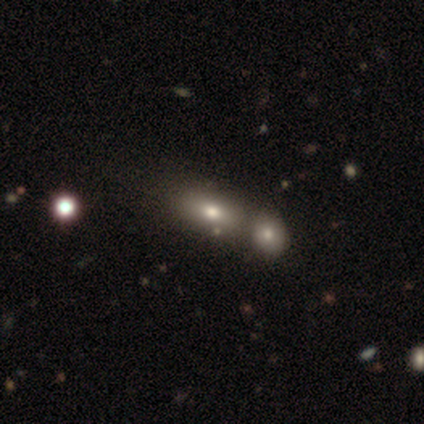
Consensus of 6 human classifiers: Smooth or featured?
  - smooth: 83% *
  - star or artifact: 17%
  - featured or disk: 0%
How rounded?
  - in between: 100% *
  - round: 0%
  - cigar-shaped: 0%
Merging?
  - none: 40% * (tied)
  - merger: 40% * (tied)
  - minor disturbance: 20%
  - major disturbance: 0%